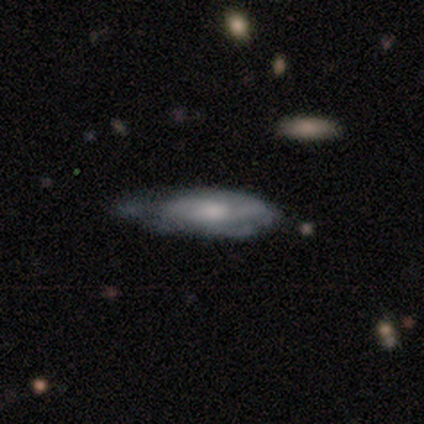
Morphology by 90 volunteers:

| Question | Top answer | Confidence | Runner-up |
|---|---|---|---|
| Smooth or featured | featured or disk | 52% | smooth (46%) |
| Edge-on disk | no | 68% | yes (32%) |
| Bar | no | 78% | weak (19%) |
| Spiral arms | yes | 75% | no (25%) |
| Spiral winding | medium | 54% | tight (29%) |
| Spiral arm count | can't tell | 71% | 2 (12%) |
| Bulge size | moderate | 56% | small (22%) |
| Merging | minor disturbance | 45% | none (38%) |